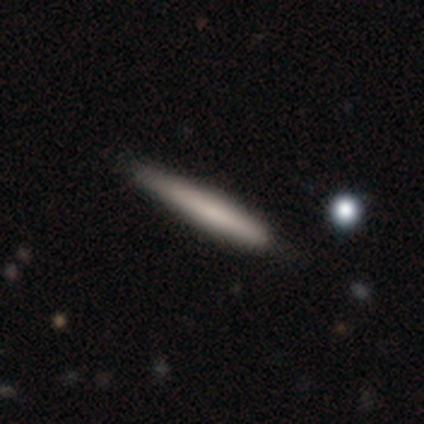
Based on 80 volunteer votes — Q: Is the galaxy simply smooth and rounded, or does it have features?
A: smooth — 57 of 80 (71%).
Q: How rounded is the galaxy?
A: cigar-shaped — 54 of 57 (95%).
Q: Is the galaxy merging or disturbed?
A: none — 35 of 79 (44%).